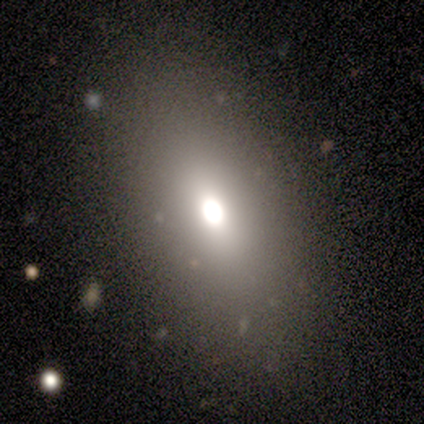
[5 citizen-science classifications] Overall: smooth (40%, tied with star or artifact). How rounded: in between (100%). Merging: none (100%).